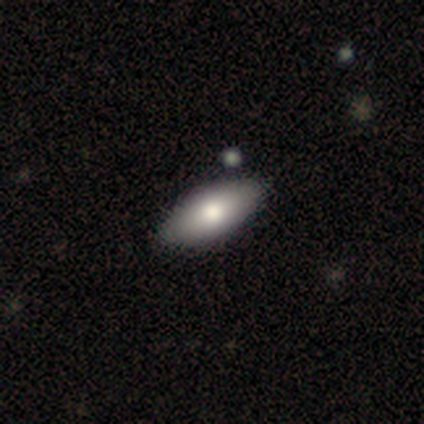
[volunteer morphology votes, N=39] type=smooth (79%); roundness=in between (90%); merging=none (74%).